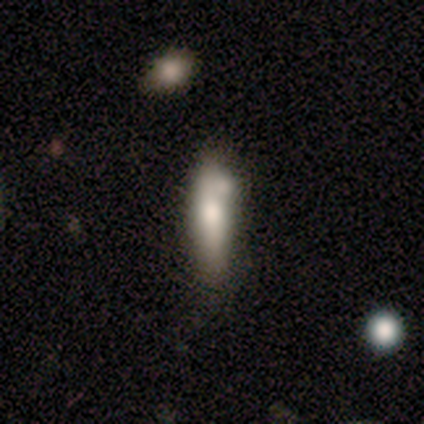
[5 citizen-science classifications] Overall: smooth (80%). How rounded: cigar-shaped (75%). Merging: none (80%).